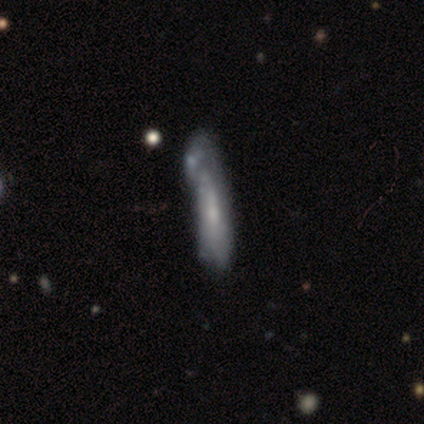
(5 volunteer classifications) Smooth or featured?
  - smooth: 40% * (tied)
  - featured or disk: 40% * (tied)
  - star or artifact: 20%
How rounded?
  - cigar-shaped: 100% *
  - round: 0%
  - in between: 0%
Merging?
  - none: 25% * (tied)
  - minor disturbance: 25% * (tied)
  - major disturbance: 25% * (tied)
  - merger: 25% * (tied)